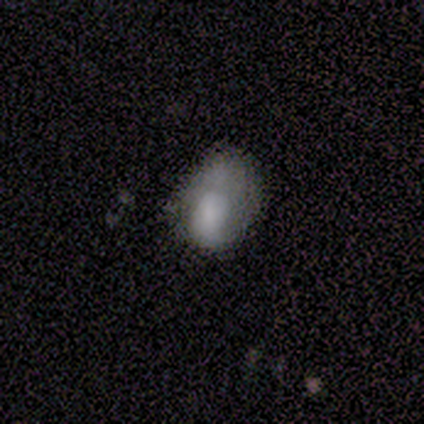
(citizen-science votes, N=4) smooth_or_featured: smooth (p=0.75) [alt: featured or disk p=0.25]
how_rounded: in between (p=1.00)
merging: minor disturbance (p=0.75) [alt: none p=0.25]